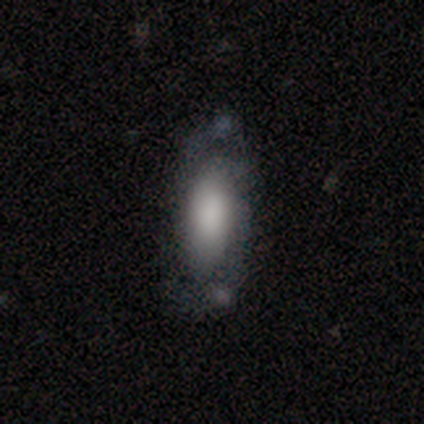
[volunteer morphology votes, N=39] type=featured or disk (51%); edge-on=no (100%); bar=no (75%); spiral arms=yes (70%); winding=loose (50%); arm count=2 (86%); bulge=large (45%); merging=none (65%).